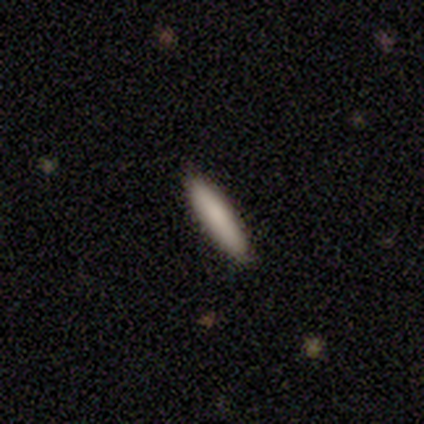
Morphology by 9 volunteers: Q: Smooth or featured?
A: smooth (67%); runner-up: featured or disk (33%)
Q: How rounded?
A: cigar-shaped (100%)
Q: Merging?
A: none (89%); runner-up: minor disturbance (11%)